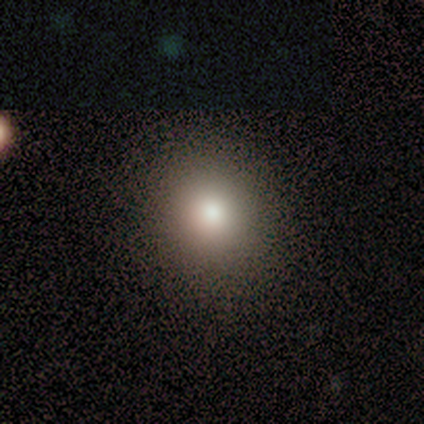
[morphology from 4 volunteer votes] Smooth or featured: smooth — 100%
How rounded: round — 75% (in between — 25%)
Merging: none — 50% (minor disturbance — 25%)